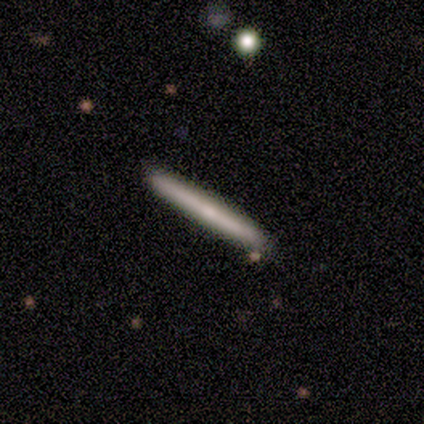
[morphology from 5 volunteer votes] smooth 80%, featured or disk 20%, star or artifact 0%. Down the decision tree: how rounded — cigar-shaped (100%); merging — none (80%).